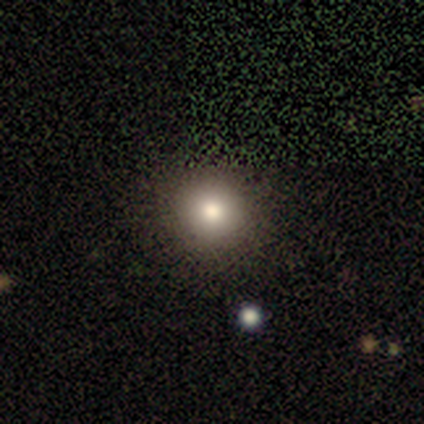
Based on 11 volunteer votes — Smooth or featured? 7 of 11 (64%) said smooth. How rounded? 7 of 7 (100%) said round. Merging? 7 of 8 (88%) said none.